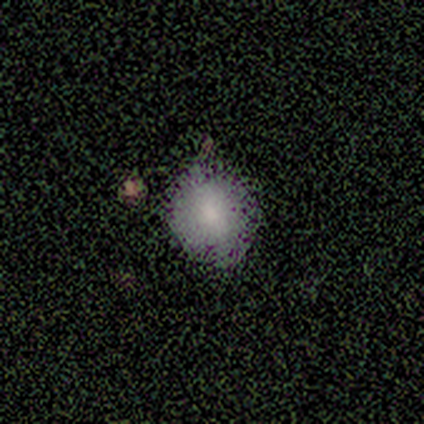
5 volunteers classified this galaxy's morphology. Smooth or featured? 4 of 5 (80%) said smooth. How rounded? 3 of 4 (75%) said round. Merging? 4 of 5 (80%) said none.